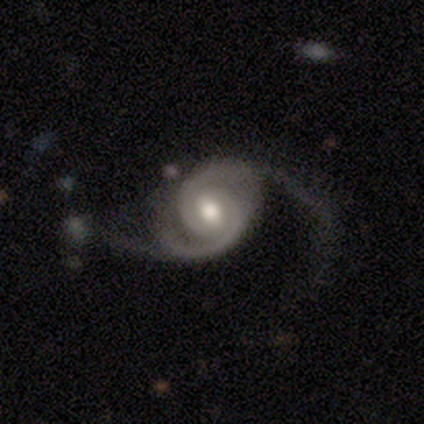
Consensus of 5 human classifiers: smooth_or_featured: featured or disk (p=1.00)
disk_edge_on: no (p=1.00)
bar: strong (p=0.40) [tied with: no p=0.40]
has_spiral_arms: yes (p=1.00)
spiral_winding: medium (p=0.60) [alt: tight p=0.20]
spiral_arm_count: 2 (p=1.00)
bulge_size: moderate (p=0.60) [alt: large p=0.20]
merging: major disturbance (p=0.60) [alt: none p=0.40]